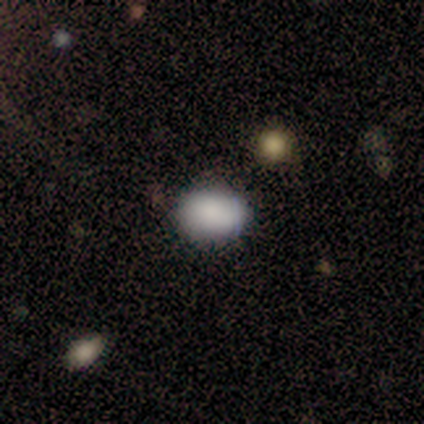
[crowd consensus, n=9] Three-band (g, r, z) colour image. It shows a smooth galaxy with no disk features (89%) that is in between round and cigar-shaped (88%). Merging: none (88%).